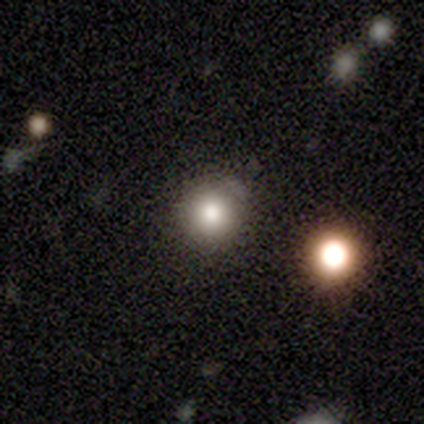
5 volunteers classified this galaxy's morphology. This is clearly a smooth galaxy (80%). How rounded: likely round (75%). Merging: clearly none (100%).